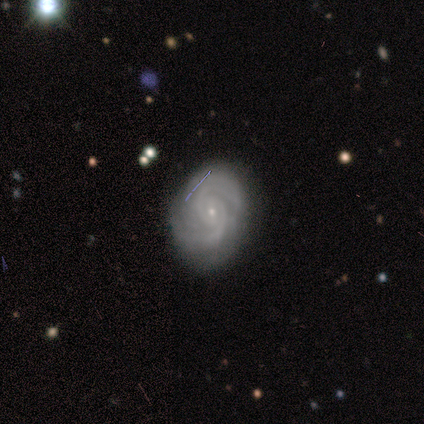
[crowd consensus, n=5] smooth_or_featured: featured or disk (p=0.80) [alt: smooth p=0.20]
disk_edge_on: no (p=1.00)
bar: strong (p=1.00)
has_spiral_arms: yes (p=1.00)
spiral_winding: tight (p=0.75) [alt: medium p=0.25]
spiral_arm_count: 2 (p=1.00)
bulge_size: small (p=1.00)
merging: none (p=0.60) [alt: major disturbance p=0.20]